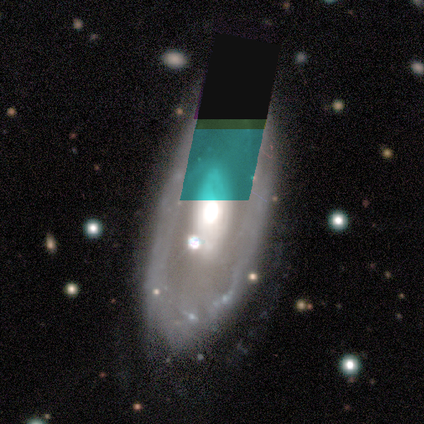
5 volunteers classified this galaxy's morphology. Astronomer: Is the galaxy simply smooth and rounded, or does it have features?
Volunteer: featured or disk — 60%.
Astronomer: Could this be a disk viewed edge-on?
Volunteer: no — 67%.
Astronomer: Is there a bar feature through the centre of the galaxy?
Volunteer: strong — 50%, tied with no at 50%.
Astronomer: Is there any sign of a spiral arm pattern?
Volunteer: yes — 50%, tied with no at 50%.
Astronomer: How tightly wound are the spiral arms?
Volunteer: tight — 100%.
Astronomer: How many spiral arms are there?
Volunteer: can't tell — 100%.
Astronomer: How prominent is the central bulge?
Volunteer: dominant — 50%, tied with moderate at 50%.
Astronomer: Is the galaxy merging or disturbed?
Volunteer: minor disturbance — 50%.